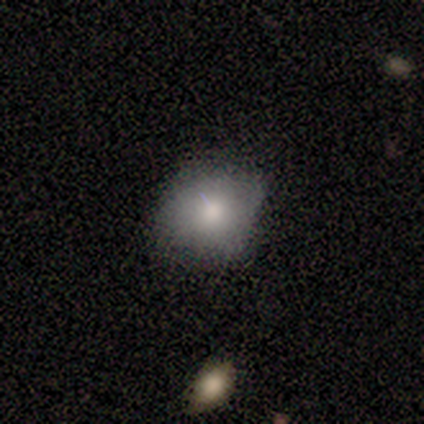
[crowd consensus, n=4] smooth-or-featured: smooth: 100% | featured or disk: 0% | star or artifact: 0%
  how-rounded: round: 50% | in between: 25% | cigar-shaped: 25%
  merging: minor disturbance: 50% | none: 25% | merger: 25% | major disturbance: 0%